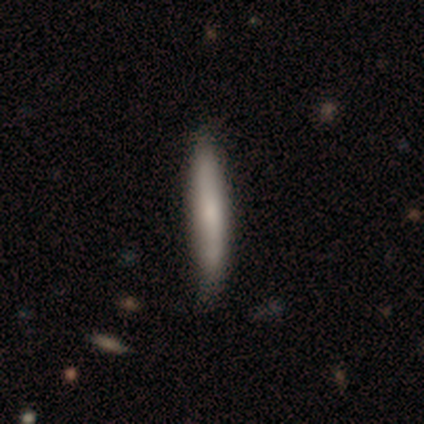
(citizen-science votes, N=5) This is clearly a smooth galaxy (80%). How rounded: clearly cigar-shaped (100%). Merging: likely none (60%).